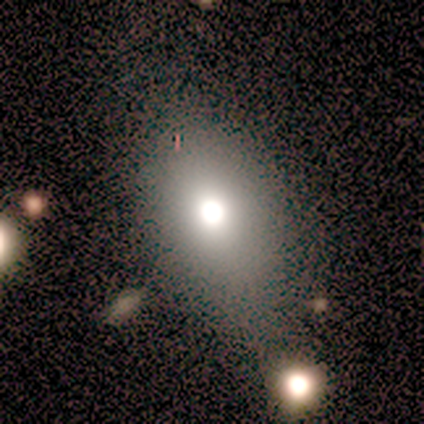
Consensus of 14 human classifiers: Volunteers were most divided on "merging": none: 62%, minor disturbance: 15%, major disturbance: 15%, merger: 8%. More confident: how rounded — in between (82%); smooth or featured — smooth (79%).